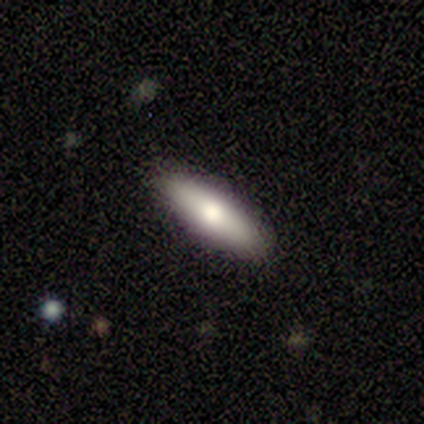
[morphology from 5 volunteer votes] Smooth or featured?
  - smooth: 60% *
  - featured or disk: 40%
  - star or artifact: 0%
How rounded?
  - cigar-shaped: 67% *
  - in between: 33%
  - round: 0%
Merging?
  - none: 80% *
  - minor disturbance: 20%
  - major disturbance: 0%
  - merger: 0%